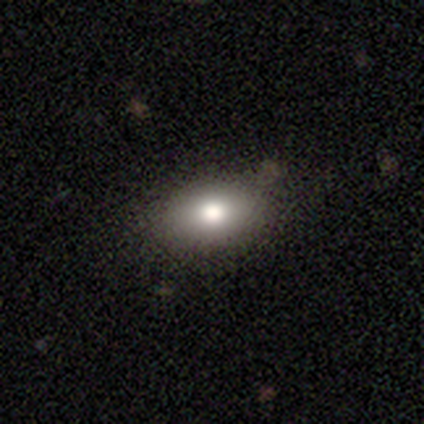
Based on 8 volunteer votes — smooth-or-featured: smooth: 88% | featured or disk: 12% | star or artifact: 0%
  how-rounded: in between: 100% | round: 0% | cigar-shaped: 0%
  merging: none: 88% | minor disturbance: 12% | major disturbance: 0% | merger: 0%